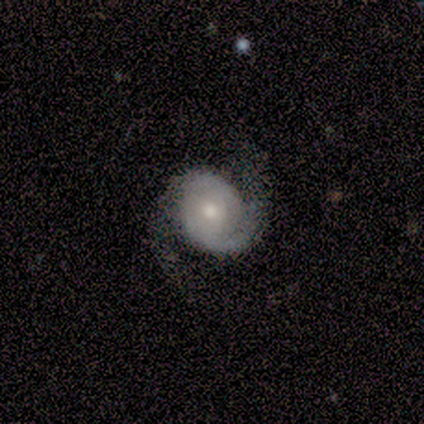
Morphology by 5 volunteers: featured or disk 100%, smooth 0%, star or artifact 0%. Down the decision tree: edge-on disk — no (100%); bar — no (80%); spiral arms — yes (100%); spiral arm count — 2 (80%); spiral winding — tight (60%); bulge size — moderate (80%); merging — none (100%).